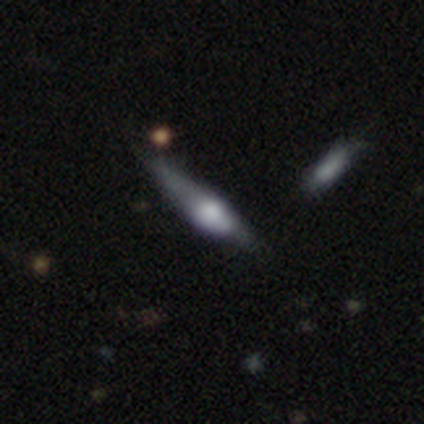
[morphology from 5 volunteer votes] Smooth or featured? smooth (60%)
How rounded? cigar-shaped (100%)
Merging? none (40%, tied with minor disturbance)